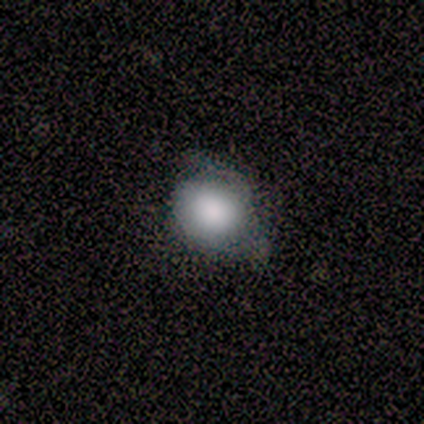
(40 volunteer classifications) Smooth or featured?
  - smooth: 72% *
  - featured or disk: 20%
  - star or artifact: 8%
How rounded?
  - round: 62% *
  - in between: 38%
  - cigar-shaped: 0%
Merging?
  - none: 51% *
  - minor disturbance: 30%
  - major disturbance: 19%
  - merger: 0%